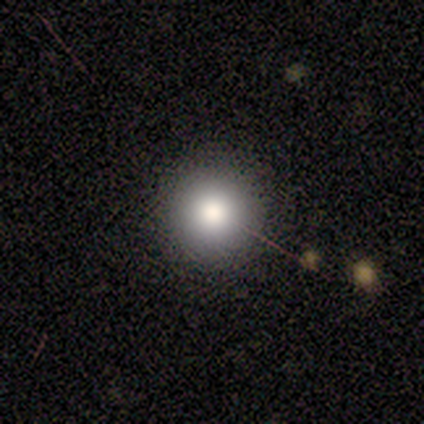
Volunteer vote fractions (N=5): This appears to be a smooth galaxy with no disk features (100%) that is round (100%). Merging: none (100%).